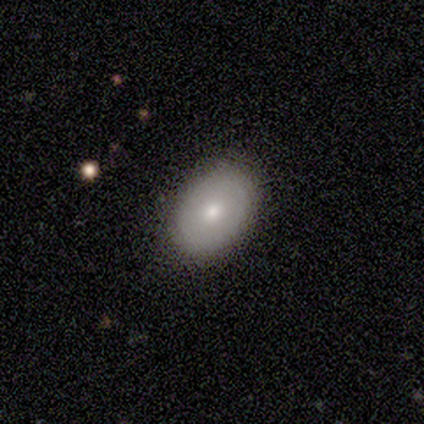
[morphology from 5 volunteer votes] Volunteers were most divided on "smooth or featured": smooth: 60%, featured or disk: 40%, star or artifact: 0%. More confident: how rounded — in between (100%); merging — none (60%).